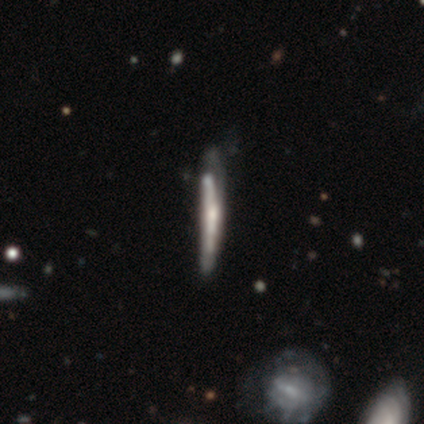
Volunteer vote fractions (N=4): Smooth or featured? featured or disk (100%)
Edge-on disk? yes (100%)
Edge-on bulge? rounded (75%)
Merging? none (75%)